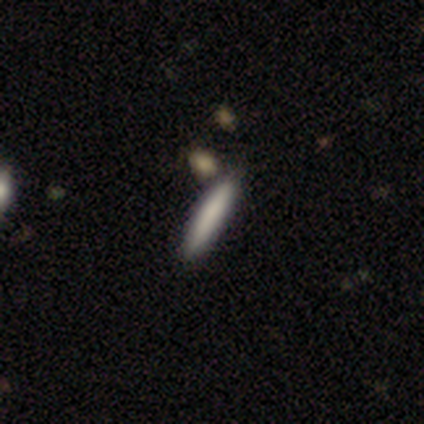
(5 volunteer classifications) smooth-or-featured: smooth: 100% | featured or disk: 0% | star or artifact: 0%
  how-rounded: cigar-shaped: 100% | round: 0% | in between: 0%
  merging: none: 100% | minor disturbance: 0% | major disturbance: 0% | merger: 0%